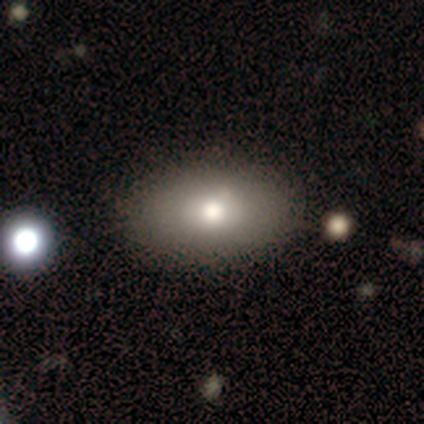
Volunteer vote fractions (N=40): smooth-or-featured: smooth: 78% | featured or disk: 20% | star or artifact: 2%
  how-rounded: in between: 90% | cigar-shaped: 6% | round: 3%
  merging: none: 85% | minor disturbance: 15% | major disturbance: 0% | merger: 0%